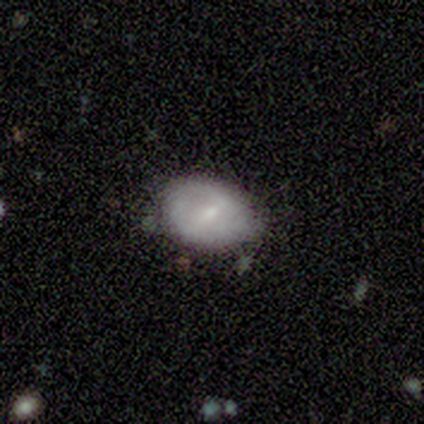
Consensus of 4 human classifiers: Smooth or featured? smooth (75%)
How rounded? in between (100%)
Merging? none (100%)